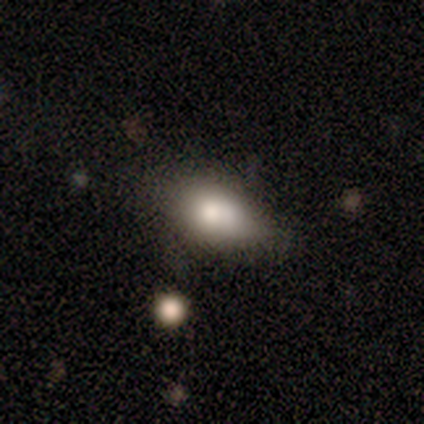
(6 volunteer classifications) Q: Smooth or featured?
A: smooth (50%); runner-up: featured or disk (33%)
Q: How rounded?
A: in between (100%)
Q: Merging?
A: none (80%); runner-up: minor disturbance (20%)